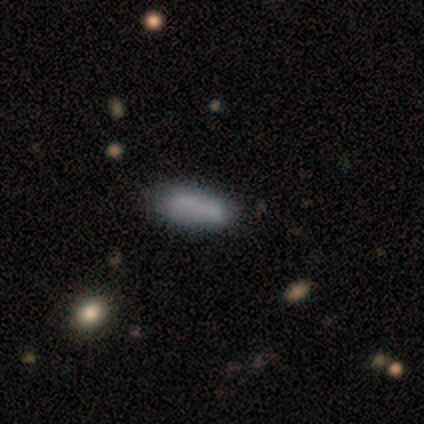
smooth-or-featured: smooth: 74% | featured or disk: 23% | star or artifact: 3%
  how-rounded: in between: 76% | cigar-shaped: 24% | round: 0%
  merging: none: 50% | minor disturbance: 29% | merger: 18% | major disturbance: 3%